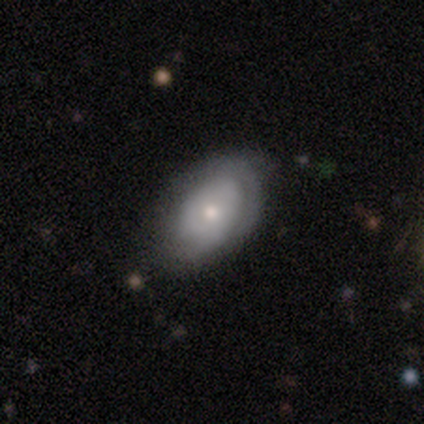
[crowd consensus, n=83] Smooth or featured? 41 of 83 (49%) said smooth. How rounded? 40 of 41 (98%) said in between. Merging? 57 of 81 (70%) said none.